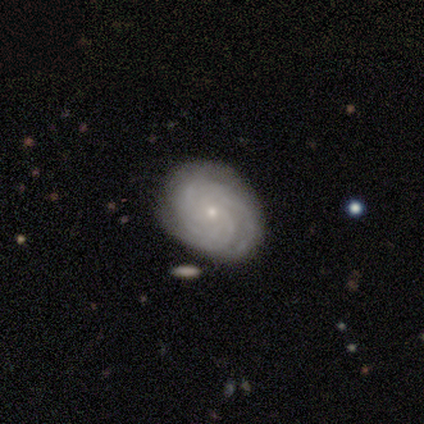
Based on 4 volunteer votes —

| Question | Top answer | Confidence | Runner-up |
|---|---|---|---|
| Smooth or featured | featured or disk | 75% | smooth (25%) |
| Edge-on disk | no | 100% | — |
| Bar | no | 100% | — |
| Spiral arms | yes | 100% | — |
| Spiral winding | tight | 100% | — |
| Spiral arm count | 3 | 33% | tied: 4 (33%), can't tell (33%) |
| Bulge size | small | 100% | — |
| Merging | none | 100% | — |